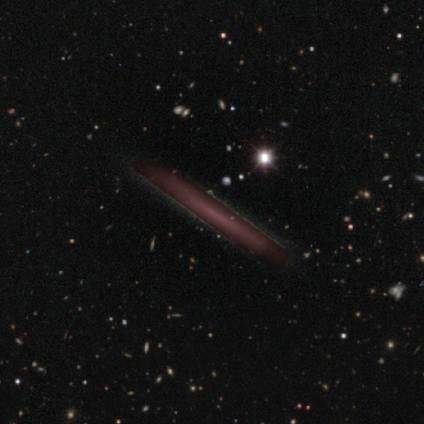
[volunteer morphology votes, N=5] This appears to be a star or artifact, not a galaxy (80%).